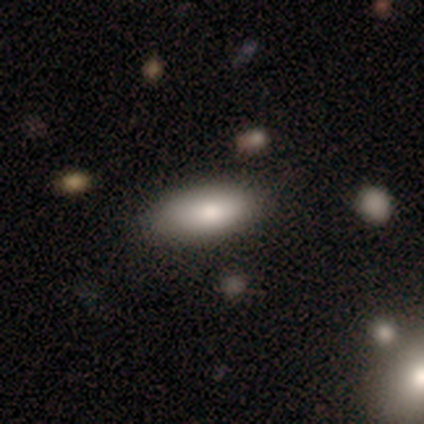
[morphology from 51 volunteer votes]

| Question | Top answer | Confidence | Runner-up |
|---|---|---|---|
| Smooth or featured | smooth | 90% | featured or disk (8%) |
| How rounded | in between | 89% | cigar-shaped (9%) |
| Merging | none | 84% | minor disturbance (14%) |